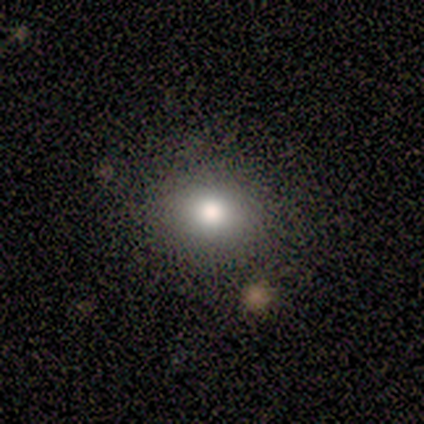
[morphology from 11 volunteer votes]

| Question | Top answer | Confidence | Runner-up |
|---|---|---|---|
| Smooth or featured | smooth | 73% | star or artifact (27%) |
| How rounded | round | 50% | tied: in between (50%) |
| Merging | none | 100% | — |